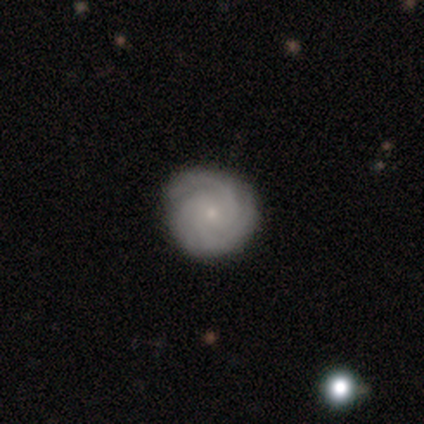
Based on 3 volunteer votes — Overall: featured or disk (67%; smooth 33%). Edge-on disk: no (100%). Bar: no (100%). Spiral arms: yes (100%). Spiral arm count: 3 (50%, tied with can't tell). Spiral winding: tight (50%, tied with medium). Bulge size: small (100%). Merging: none (100%).